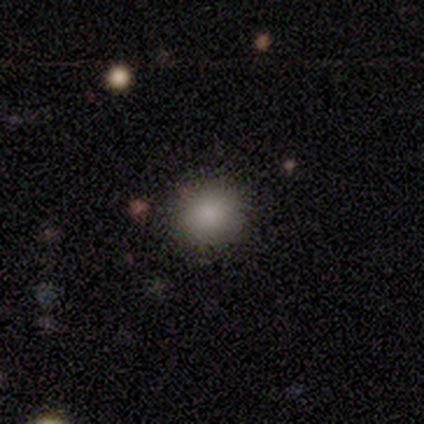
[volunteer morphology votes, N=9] smooth_or_featured: smooth (p=0.78) [alt: star or artifact p=0.22]
how_rounded: round (p=0.86) [alt: in between p=0.14]
merging: none (p=1.00)